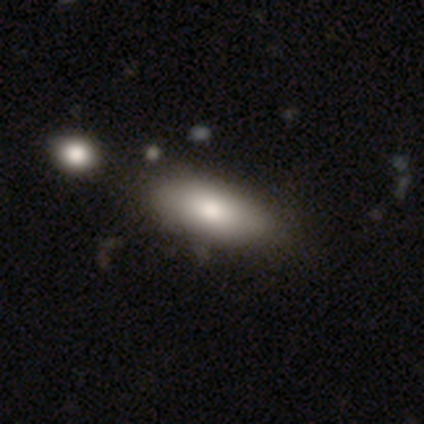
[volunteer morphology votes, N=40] A smooth galaxy with no disk features (85%) that is in between round and cigar-shaped (91%). Merging: none (56%).